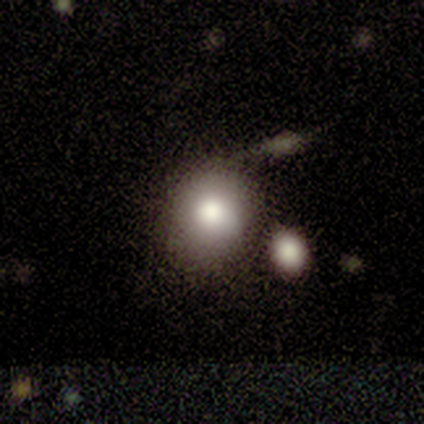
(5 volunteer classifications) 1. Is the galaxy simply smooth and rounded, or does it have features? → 60% smooth, 40% featured or disk, 0% star or artifact.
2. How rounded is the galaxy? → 100% round, 0% in between, 0% cigar-shaped.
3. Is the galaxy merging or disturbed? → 60% merger, 40% none, 0% minor disturbance, 0% major disturbance.